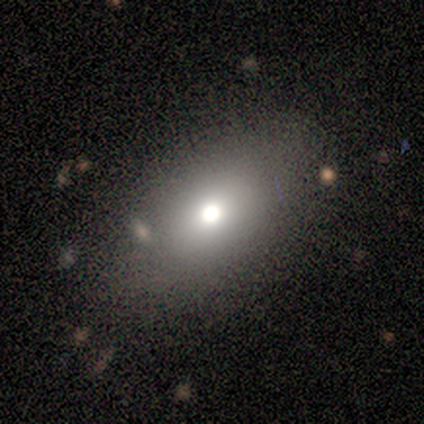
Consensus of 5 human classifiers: smooth-or-featured: smooth: 100% | featured or disk: 0% | star or artifact: 0%
  how-rounded: in between: 80% | round: 20% | cigar-shaped: 0%
  merging: none: 80% | merger: 20% | minor disturbance: 0% | major disturbance: 0%